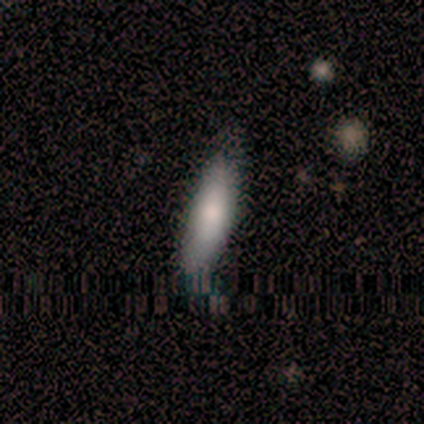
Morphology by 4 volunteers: Smooth or featured? 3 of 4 (75%) said smooth. How rounded? 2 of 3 (67%) said cigar-shaped. Merging? 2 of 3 (67%) said none.